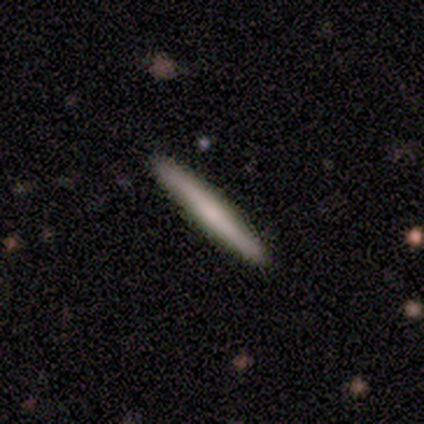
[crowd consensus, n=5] Smooth or featured: smooth — 80% (featured or disk — 20%)
How rounded: cigar-shaped — 100%
Merging: none — 100%